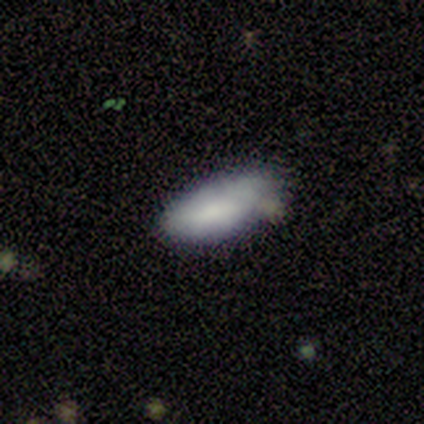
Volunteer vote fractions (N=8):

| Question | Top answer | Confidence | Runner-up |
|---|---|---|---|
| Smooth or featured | smooth | 88% | featured or disk (12%) |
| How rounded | in between | 100% | — |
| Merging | none | 62% | minor disturbance (25%) |